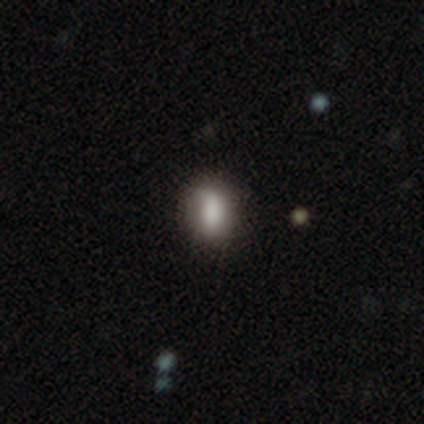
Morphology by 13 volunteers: Smooth or featured: smooth — 92% (featured or disk — 8%)
How rounded: in between — 92% (round — 8%)
Merging: none — 62% (minor disturbance — 38%)